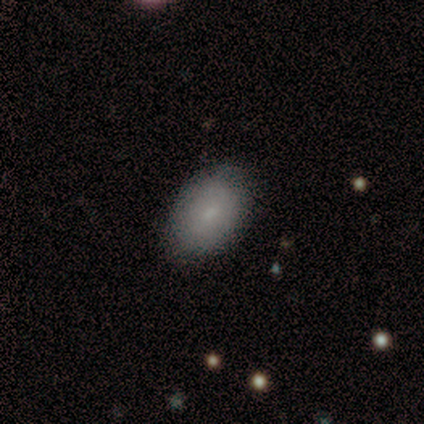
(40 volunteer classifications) smooth_or_featured: smooth (p=0.80) [alt: featured or disk p=0.20]
how_rounded: in between (p=0.88) [alt: round p=0.12]
merging: none (p=0.82) [alt: minor disturbance p=0.15]